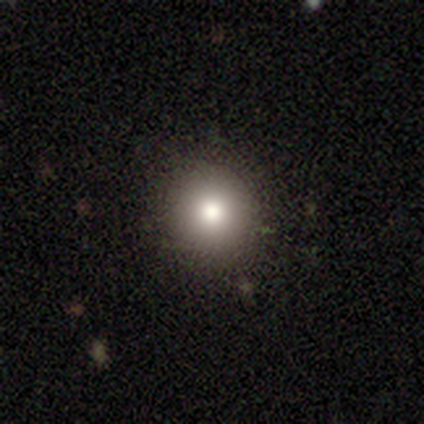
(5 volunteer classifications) smooth-or-featured: smooth: 100% | featured or disk: 0% | star or artifact: 0%
  how-rounded: round: 100% | in between: 0% | cigar-shaped: 0%
  merging: none: 100% | minor disturbance: 0% | major disturbance: 0% | merger: 0%